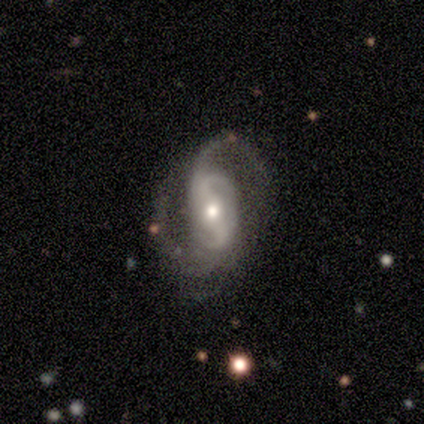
This appears to be a featured or disk galaxy (98%) with a strong bar (49%), 2 (82%) medium (51%) spiral arms (100%) and a moderate central bulge (60%). Merging: none (60%).